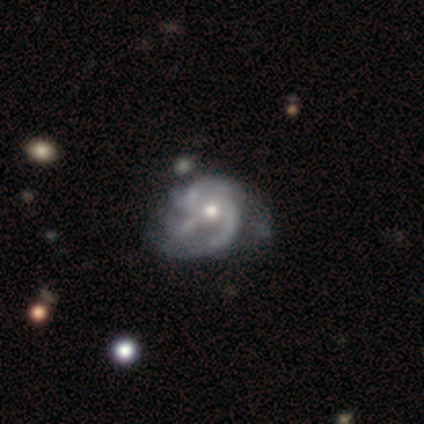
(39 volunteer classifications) Morphology: type=featured or disk (90%); edge-on=no (97%); bar=no (79%); spiral arms=yes (94%); winding=medium (41%); arm count=can't tell (34%); bulge=moderate (59%); merging=minor disturbance (26%).